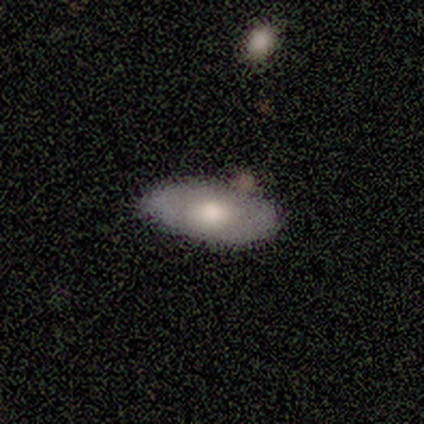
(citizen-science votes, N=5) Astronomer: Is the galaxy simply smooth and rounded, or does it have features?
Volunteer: smooth — 80%.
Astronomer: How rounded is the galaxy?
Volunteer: in between — 100%.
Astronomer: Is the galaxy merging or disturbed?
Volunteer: none — 60%.